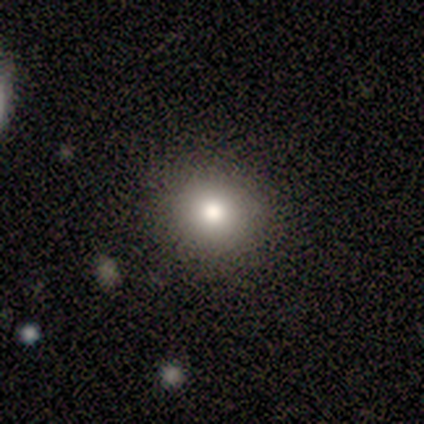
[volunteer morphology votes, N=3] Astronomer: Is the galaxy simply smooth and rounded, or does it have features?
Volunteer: smooth — 100%.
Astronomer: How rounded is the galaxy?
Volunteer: round — 67%.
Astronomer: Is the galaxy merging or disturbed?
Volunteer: none — 67%.